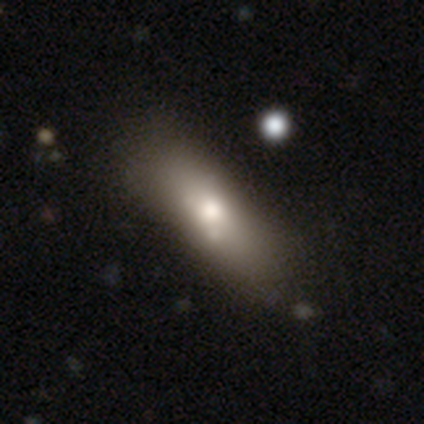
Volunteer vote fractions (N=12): A smooth galaxy with no disk features (58%) that is cigar-shaped (57%). Merging: none (80%).